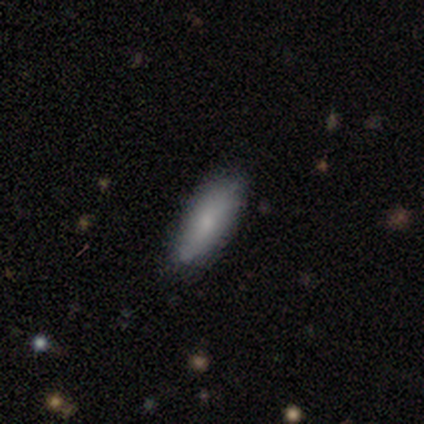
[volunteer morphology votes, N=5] type=smooth (100%); roundness=in between (100%); merging=none (60%).